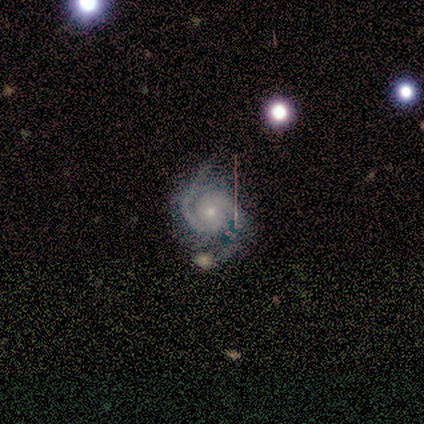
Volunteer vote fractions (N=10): A featured or disk galaxy (90%) with no bar (67%), 2 (89%) medium (56%) spiral arms (100%) and a small central bulge (67%). Merging: none (70%).